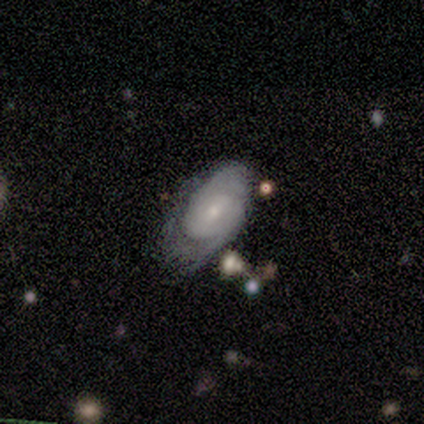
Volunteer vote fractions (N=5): Smooth or featured? featured or disk (60%)
Edge-on disk? no (100%)
Bar? no (67%)
Spiral arms? yes (67%)
Spiral winding? tight (50%, tied with loose)
Spiral arm count? 2 (100%)
Bulge size? small (67%)
Merging? none (60%)